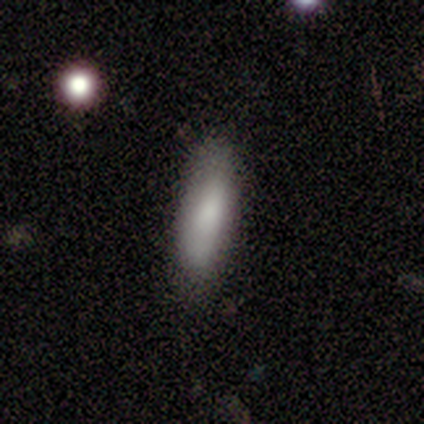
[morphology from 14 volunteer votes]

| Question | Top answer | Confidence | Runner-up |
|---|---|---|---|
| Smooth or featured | smooth | 93% | featured or disk (7%) |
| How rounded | in between | 54% | cigar-shaped (46%) |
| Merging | none | 86% | minor disturbance (14%) |